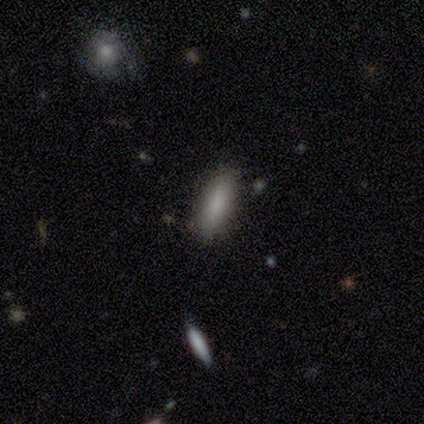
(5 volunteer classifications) Smooth or featured? smooth (100%)
How rounded? cigar-shaped (80%)
Merging? none (100%)